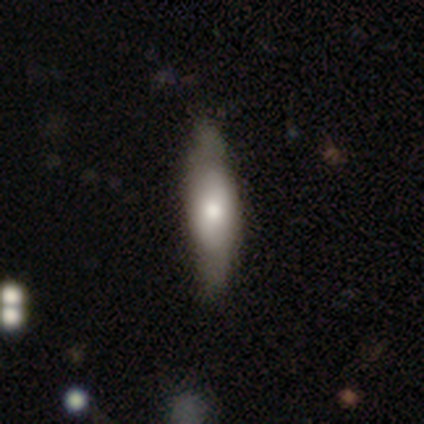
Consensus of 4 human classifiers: Overall: smooth (75%). How rounded: cigar-shaped (67%; in between 33%). Merging: none (100%).